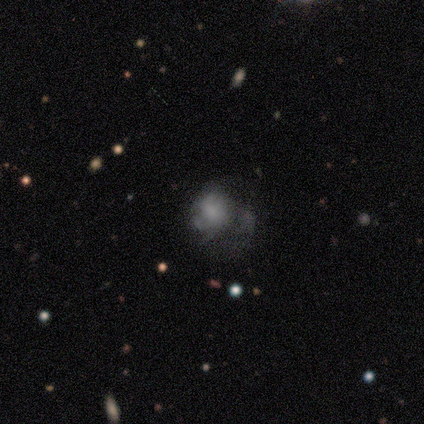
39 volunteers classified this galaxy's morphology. Smooth or featured? smooth (54%)
How rounded? round (62%)
Merging? none (22%)